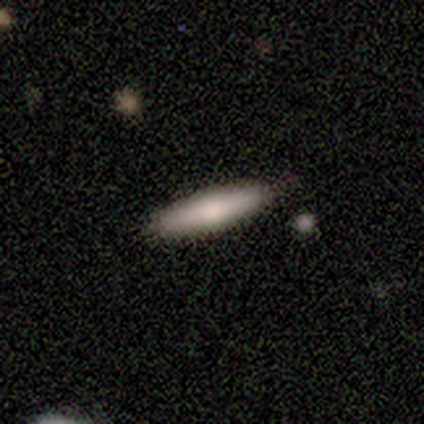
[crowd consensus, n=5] Smooth or featured: smooth — 100%
How rounded: cigar-shaped — 100%
Merging: none — 80% (minor disturbance — 20%)